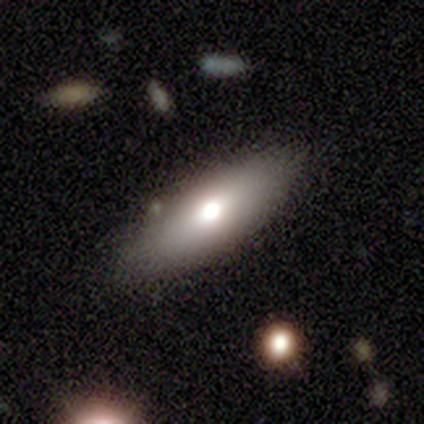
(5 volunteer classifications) This appears to be a smooth galaxy with no disk features (80%) that is in between round and cigar-shaped (50%, tied with cigar-shaped). Merging: none (80%).